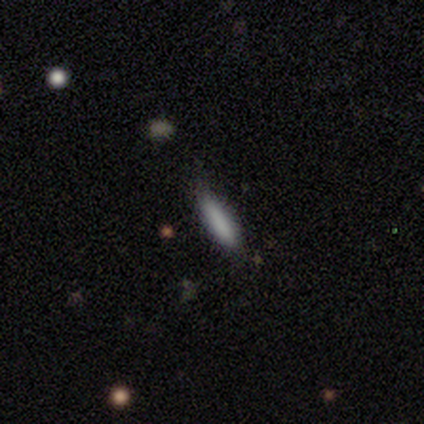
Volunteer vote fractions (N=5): smooth 100%, featured or disk 0%, star or artifact 0%. Down the decision tree: how rounded — cigar-shaped (100%); merging — none (60%).